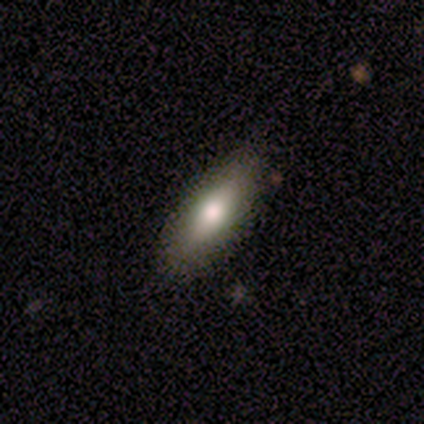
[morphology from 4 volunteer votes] Smooth or featured?
  - smooth: 75% *
  - featured or disk: 25%
  - star or artifact: 0%
How rounded?
  - in between: 100% *
  - round: 0%
  - cigar-shaped: 0%
Merging?
  - none: 100% *
  - minor disturbance: 0%
  - major disturbance: 0%
  - merger: 0%